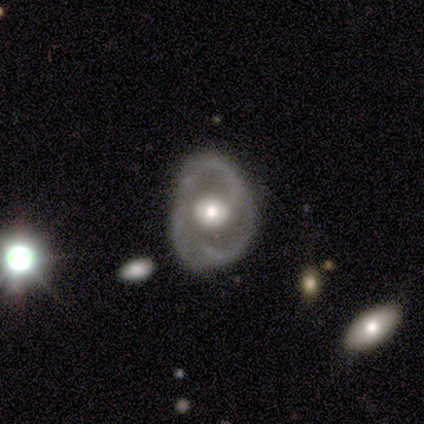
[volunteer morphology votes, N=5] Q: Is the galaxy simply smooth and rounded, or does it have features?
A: featured or disk — 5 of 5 (100%).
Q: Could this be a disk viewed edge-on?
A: no — 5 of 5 (100%).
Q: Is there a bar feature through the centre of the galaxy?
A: no — 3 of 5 (60%).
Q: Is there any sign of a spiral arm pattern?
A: no — 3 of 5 (60%).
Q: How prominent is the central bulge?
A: moderate — 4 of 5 (80%).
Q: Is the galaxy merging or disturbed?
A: major disturbance — 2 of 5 (40%).